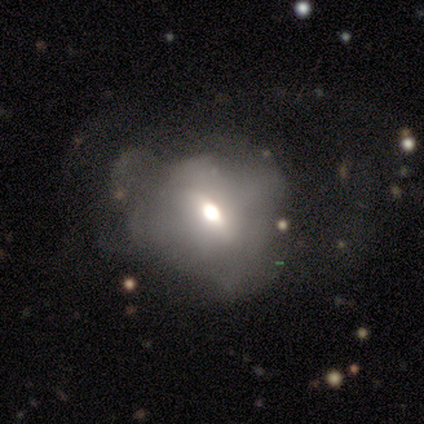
smooth-or-featured: smooth: 50% | star or artifact: 33% | featured or disk: 17%
  how-rounded: round: 67% | in between: 33% | cigar-shaped: 0%
  merging: major disturbance: 100% | none: 0% | minor disturbance: 0% | merger: 0%